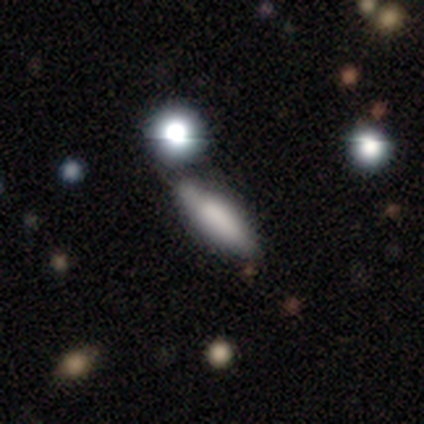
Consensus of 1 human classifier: Overall: smooth (100%). How rounded: cigar-shaped (100%). Merging: none (100%).